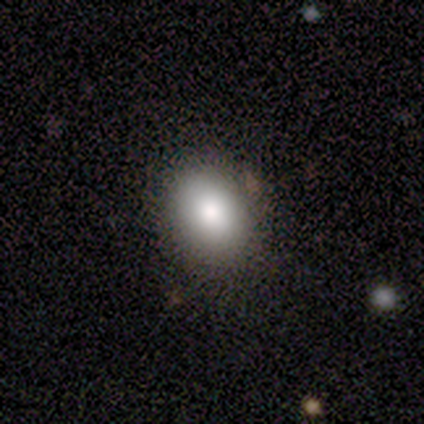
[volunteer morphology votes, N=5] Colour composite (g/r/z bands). It shows a smooth galaxy with no disk features (100%) that is round (80%). Merging: none (100%).